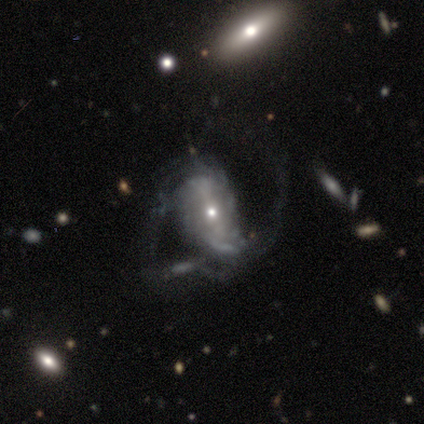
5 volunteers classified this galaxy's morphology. Q: Smooth or featured?
A: featured or disk (80%); runner-up: smooth (20%)
Q: Edge-on disk?
A: no (100%)
Q: Bar?
A: weak (100%)
Q: Spiral arms?
A: yes (75%); runner-up: no (25%)
Q: Spiral winding?
A: tight (67%); runner-up: medium (33%)
Q: Spiral arm count?
A: 2 (67%); runner-up: 3 (33%)
Q: Bulge size?
A: small (50%); runner-up: moderate (25%)
Q: Merging?
A: major disturbance (60%); runner-up: minor disturbance (40%)